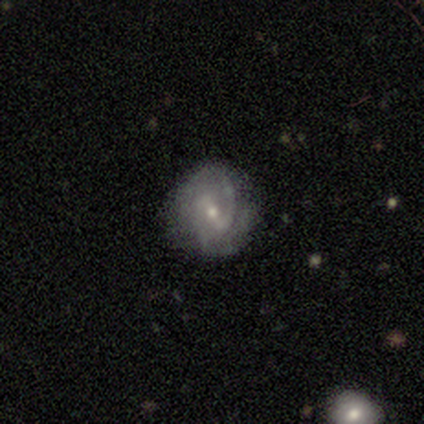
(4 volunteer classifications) Overall: featured or disk (100%). Edge-on disk: no (100%). Bar: weak (50%; strong 25%). Spiral arms: yes (100%). Spiral arm count: 2 (100%). Spiral winding: medium (50%, tied with loose). Bulge size: small (100%). Merging: none (75%).